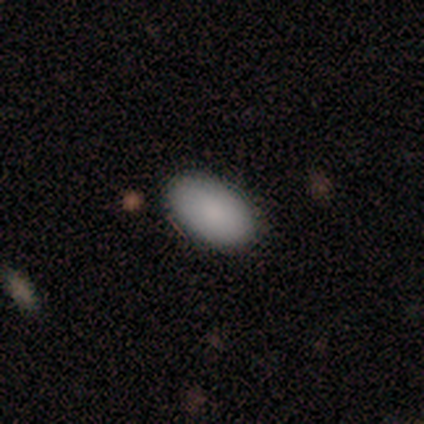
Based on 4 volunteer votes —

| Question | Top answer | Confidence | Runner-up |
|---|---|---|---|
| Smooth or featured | smooth | 100% | — |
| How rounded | in between | 100% | — |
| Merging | none | 100% | — |